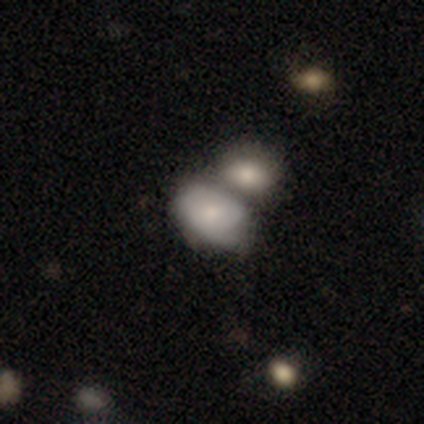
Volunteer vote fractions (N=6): smooth-or-featured: smooth: 50% (tied) | featured or disk: 50% (tied) | star or artifact: 0%
  how-rounded: in between: 100% | round: 0% | cigar-shaped: 0%
  merging: none: 67% | merger: 33% | minor disturbance: 0% | major disturbance: 0%